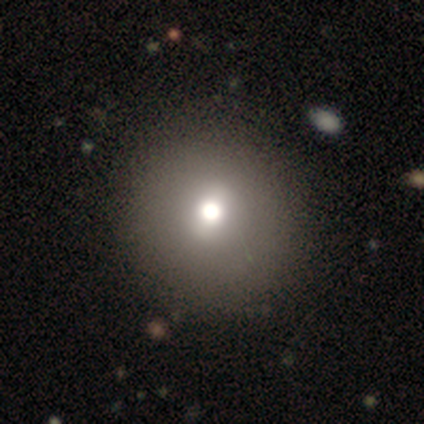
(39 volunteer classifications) This is likely a smooth galaxy (72%). How rounded: clearly round (100%). Merging: likely none (67%).